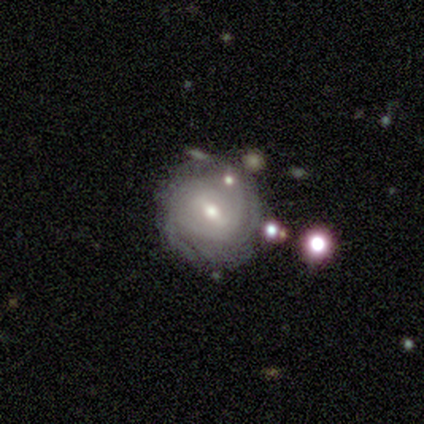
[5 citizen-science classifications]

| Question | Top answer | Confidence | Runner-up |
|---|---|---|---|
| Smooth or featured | featured or disk | 100% | — |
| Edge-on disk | no | 100% | — |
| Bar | weak | 60% | no (40%) |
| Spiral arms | yes | 100% | — |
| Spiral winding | tight | 60% | medium (20%) |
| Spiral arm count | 2 | 60% | more than 4 (20%) |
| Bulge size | moderate | 80% | dominant (20%) |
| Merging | minor disturbance | 40% | tied: merger (40%) |